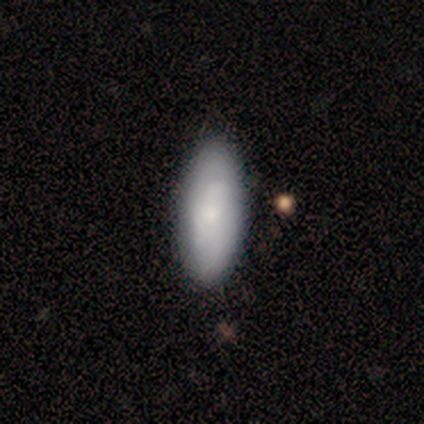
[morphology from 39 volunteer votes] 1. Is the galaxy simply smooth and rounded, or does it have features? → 51% smooth, 46% featured or disk, 3% star or artifact.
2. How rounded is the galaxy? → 90% in between, 5% round, 5% cigar-shaped.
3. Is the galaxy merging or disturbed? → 68% none, 16% minor disturbance, 3% major disturbance, 0% merger.